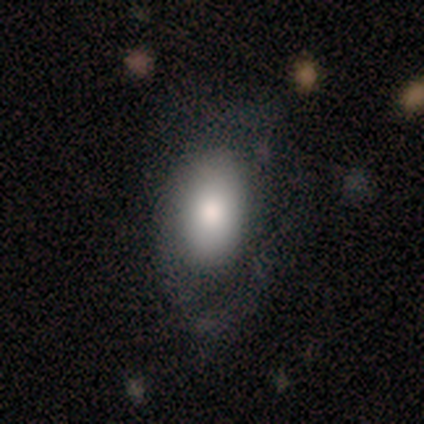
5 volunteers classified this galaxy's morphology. Q: Smooth or featured?
A: smooth (100%)
Q: How rounded?
A: in between (100%)
Q: Merging?
A: none (60%); runner-up: minor disturbance (20%)